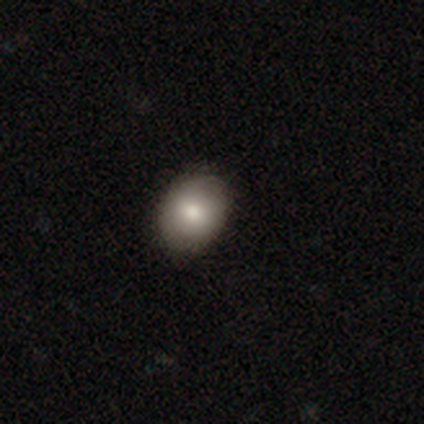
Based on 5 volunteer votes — Q: Smooth or featured?
A: smooth (60%); runner-up: featured or disk (20%)
Q: How rounded?
A: round (67%); runner-up: in between (33%)
Q: Merging?
A: none (100%)